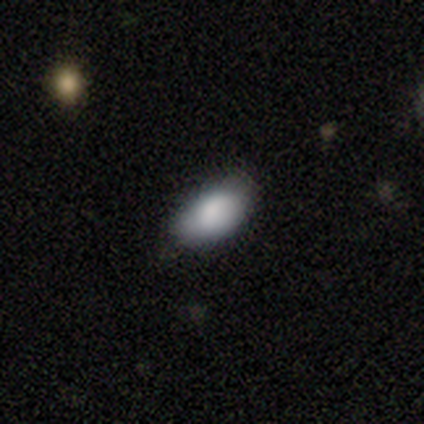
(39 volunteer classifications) Q: Smooth or featured?
A: smooth (85%); runner-up: featured or disk (10%)
Q: How rounded?
A: in between (94%); runner-up: cigar-shaped (6%)
Q: Merging?
A: none (76%); runner-up: minor disturbance (19%)